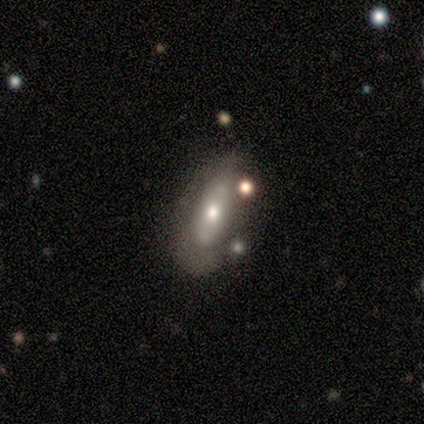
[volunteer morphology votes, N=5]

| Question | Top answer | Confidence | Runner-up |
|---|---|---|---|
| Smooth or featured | featured or disk | 60% | smooth (40%) |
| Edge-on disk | yes | 67% | no (33%) |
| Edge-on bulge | rounded | 100% | — |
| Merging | none | 60% | minor disturbance (20%) |